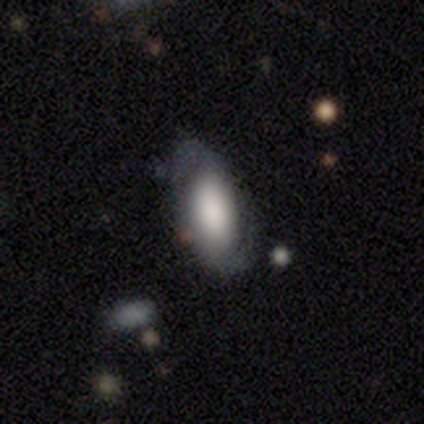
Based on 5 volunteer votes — smooth_or_featured: featured or disk (p=0.80) [alt: smooth p=0.20]
disk_edge_on: no (p=1.00)
bar: no (p=0.75) [alt: weak p=0.25]
has_spiral_arms: yes (p=1.00)
spiral_winding: loose (p=0.50) [alt: tight p=0.25]
spiral_arm_count: 2 (p=1.00)
bulge_size: large (p=0.50) [alt: dominant p=0.25]
merging: none (p=0.80) [alt: minor disturbance p=0.20]